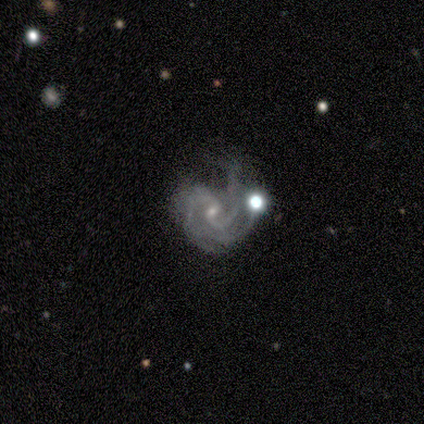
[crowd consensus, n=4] This appears to be a featured or disk galaxy (75%) with a weak bar (67%), 2 (100%) medium (100%) spiral arms (100%) and a small central bulge (100%). Merging: none (50%).